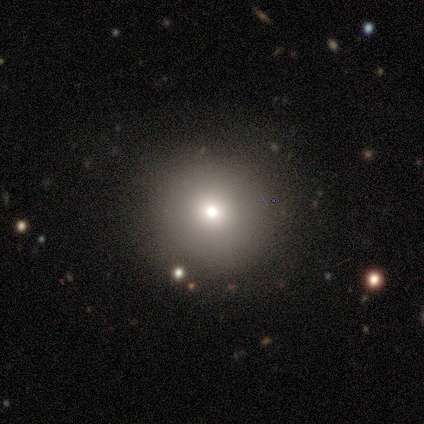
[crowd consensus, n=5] Smooth or featured: smooth — 80% (featured or disk — 20%)
How rounded: round — 100%
Merging: none — 100%